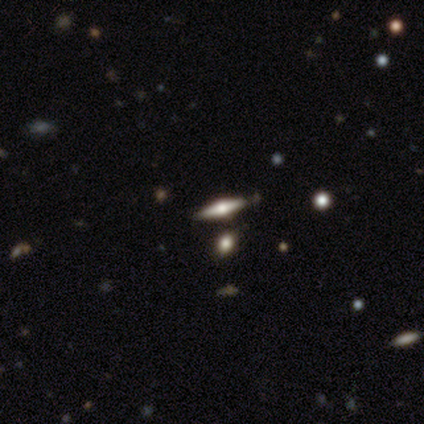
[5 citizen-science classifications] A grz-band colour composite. It shows a featured or disk galaxy (100%) viewed edge-on (100%) with a rounded central bulge (80%). Merging: none (80%).